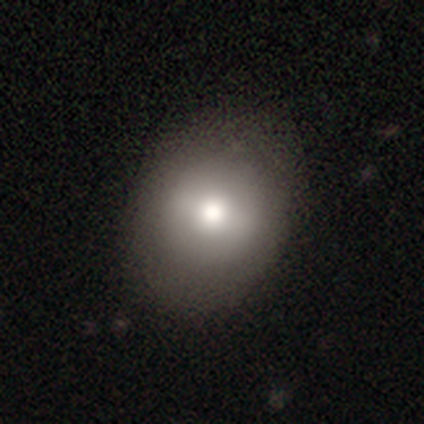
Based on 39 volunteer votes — Overall: smooth (82%). How rounded: round (66%; in between 34%). Merging: none (68%).